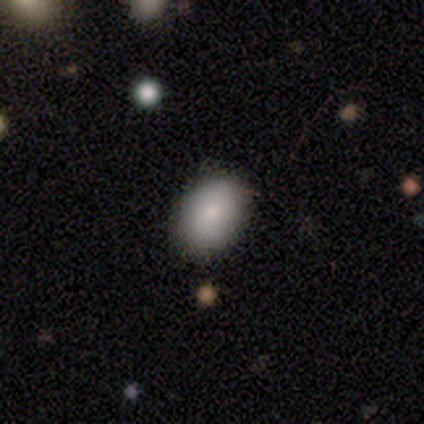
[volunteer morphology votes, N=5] This is clearly a smooth galaxy (80%). How rounded: clearly in between (100%). Merging: clearly none (100%).